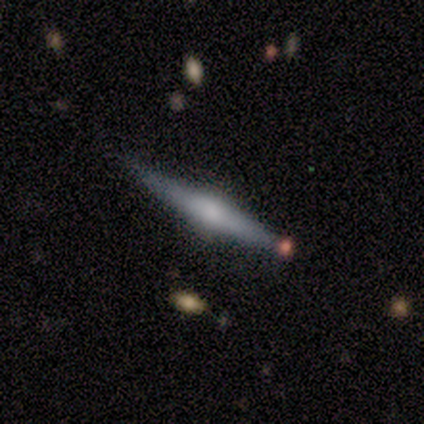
Overall: featured or disk (100%). Edge-on disk: yes (100%). Edge-on bulge: rounded (71%). Merging: minor disturbance (57%; none 43%).